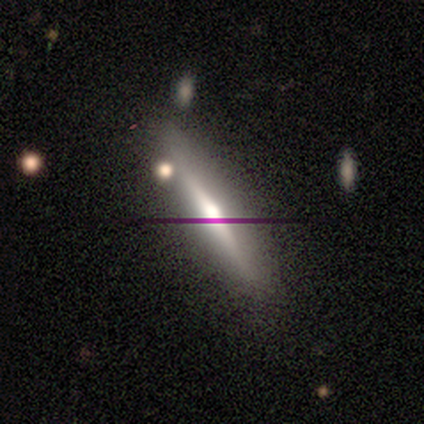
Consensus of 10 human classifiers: Smooth or featured: featured or disk — 70% (smooth — 30%)
Edge-on disk: yes — 100%
Edge-on bulge: rounded — 100%
Merging: none — 90% (merger — 10%)